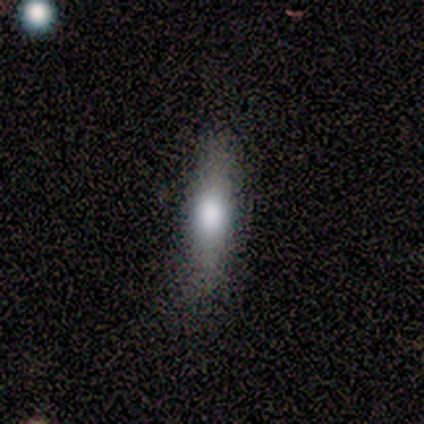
Smooth or featured? smooth (80%)
How rounded? in between (50%, tied with cigar-shaped)
Merging? none (40%, tied with minor disturbance)